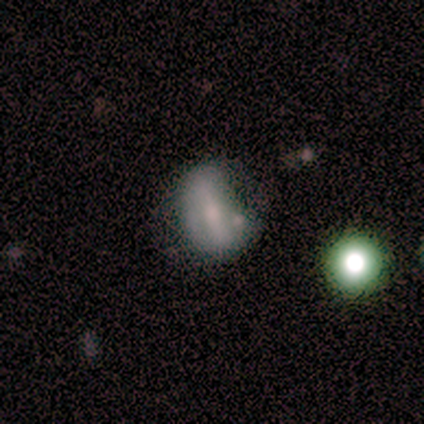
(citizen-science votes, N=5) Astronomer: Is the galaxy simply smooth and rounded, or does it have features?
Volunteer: smooth — 60% (runner-up: featured or disk, 40%).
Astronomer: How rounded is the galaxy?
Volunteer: round — 33%, tied with in between and cigar-shaped at 33%.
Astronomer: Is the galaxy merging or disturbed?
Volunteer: none — 60% (runner-up: minor disturbance, 40%).